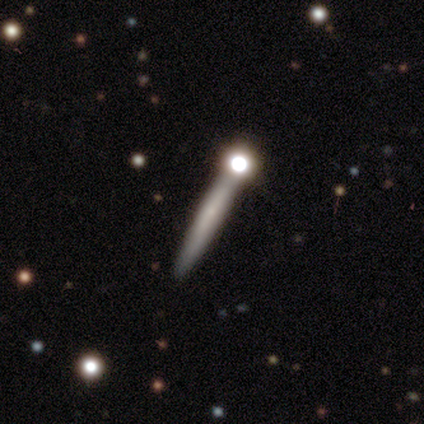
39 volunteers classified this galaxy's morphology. Smooth or featured? 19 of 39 (49%) said smooth. How rounded? 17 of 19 (89%) said cigar-shaped. Merging? 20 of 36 (56%) said none.